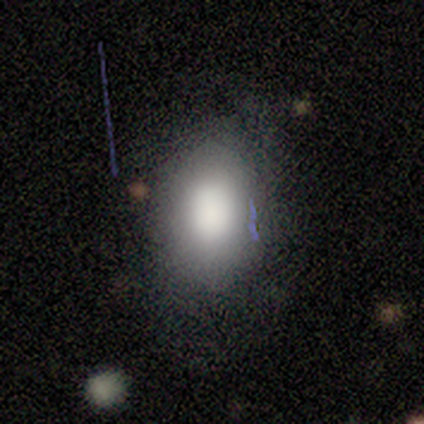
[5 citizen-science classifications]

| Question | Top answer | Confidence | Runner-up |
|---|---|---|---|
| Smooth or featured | smooth | 100% | — |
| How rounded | in between | 80% | round (20%) |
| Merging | none | 80% | minor disturbance (20%) |